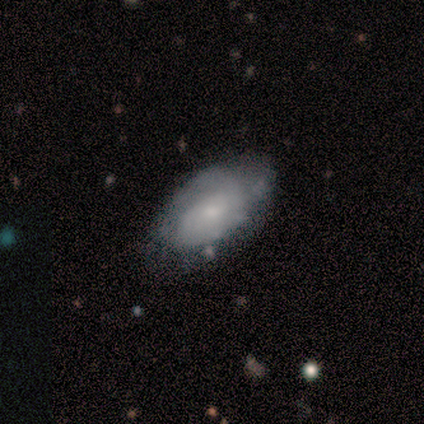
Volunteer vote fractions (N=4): smooth 75%, featured or disk 25%, star or artifact 0%. Down the decision tree: how rounded — in between (100%); merging — none (75%).